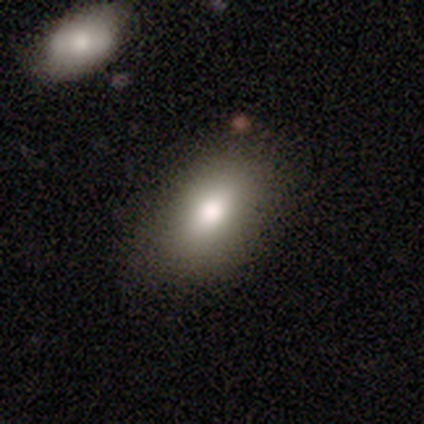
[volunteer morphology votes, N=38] Q: Smooth or featured?
A: smooth (79%); runner-up: featured or disk (11%)
Q: How rounded?
A: in between (80%); runner-up: round (17%)
Q: Merging?
A: none (82%); runner-up: minor disturbance (15%)